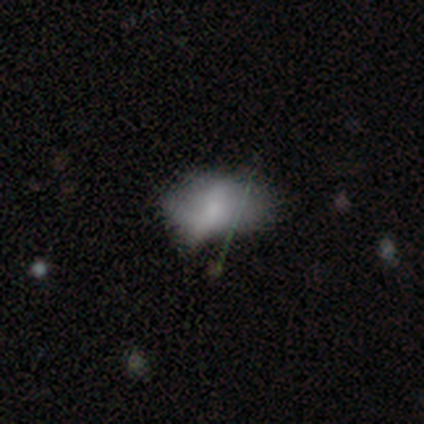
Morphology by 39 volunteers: smooth-or-featured: smooth: 54% | featured or disk: 36% | star or artifact: 10%
  how-rounded: in between: 86% | round: 10% | cigar-shaped: 5%
  merging: major disturbance: 23% | minor disturbance: 20% | none: 17% | merger: 9%